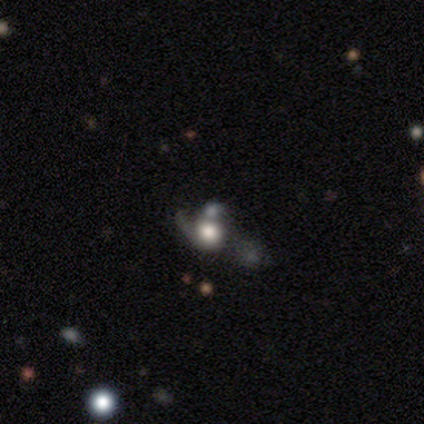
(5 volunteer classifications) Volunteers were most divided on "bulge size" (3-way tie): dominant: 33%, large: 33%, moderate: 33%, small: 0%, none: 0%. More confident: edge-on disk — no (100%); spiral winding — loose (100%); spiral arm count — 1 (100%); bar — no (67%); spiral arms — yes (67%); smooth or featured — featured or disk (60%); merging — minor disturbance (50%).